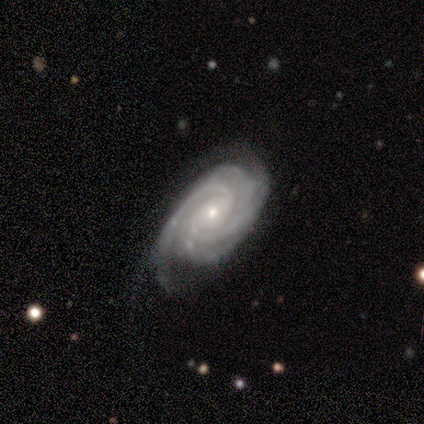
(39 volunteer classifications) This is clearly a featured or disk galaxy (92%). It is clearly not viewed edge-on (97%). Bar: likely no (69%). Spiral arm pattern: clearly yes (100%). Spiral arm count: marginally 4 (43%). Spiral winding: clearly tight (80%). Central bulge: likely small (63%). Merging: likely none (70%).